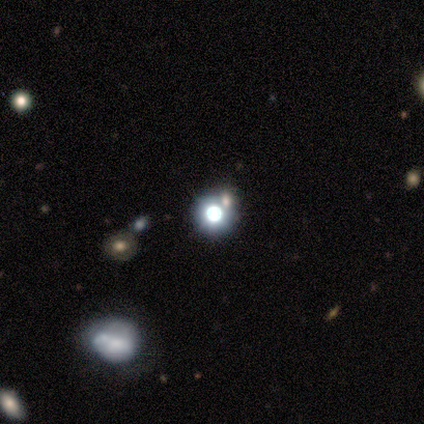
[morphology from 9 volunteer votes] This is possibly a star or artifact rather than a galaxy (56%).